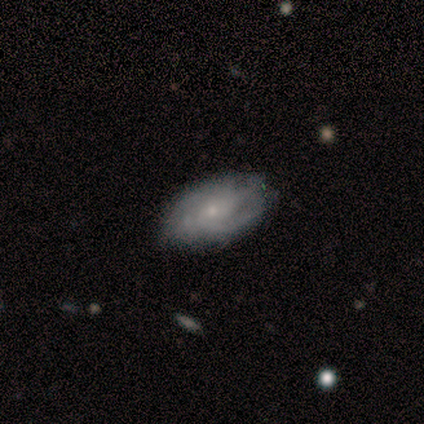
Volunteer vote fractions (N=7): Volunteers were most divided on "bulge size": small: 60%, moderate: 20%, none: 20%, dominant: 0%, large: 0%. More confident: edge-on disk — no (100%); merging — none (100%); bar — no (80%); spiral arms — yes (80%); spiral winding — medium (75%); spiral arm count — can't tell (75%); smooth or featured — featured or disk (71%).